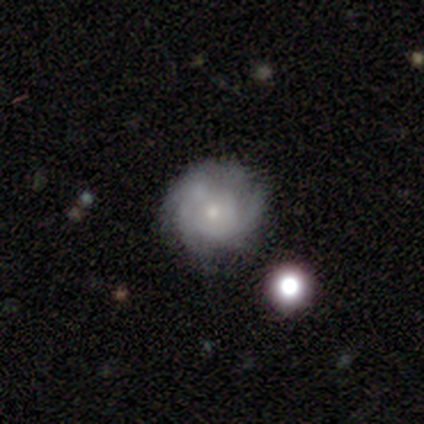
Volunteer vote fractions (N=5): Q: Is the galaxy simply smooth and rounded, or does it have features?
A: featured or disk — 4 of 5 (80%).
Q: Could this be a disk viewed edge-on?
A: no — 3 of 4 (75%).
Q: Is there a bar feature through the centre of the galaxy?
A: no — 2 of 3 (67%).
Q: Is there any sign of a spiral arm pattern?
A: yes — 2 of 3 (67%).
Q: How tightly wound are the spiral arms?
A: tight — 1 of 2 (50%, tied with medium).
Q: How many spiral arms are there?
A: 2 — 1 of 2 (50%, tied with can't tell).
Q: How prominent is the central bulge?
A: small — 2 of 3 (67%).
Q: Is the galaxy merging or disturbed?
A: none — 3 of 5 (60%).